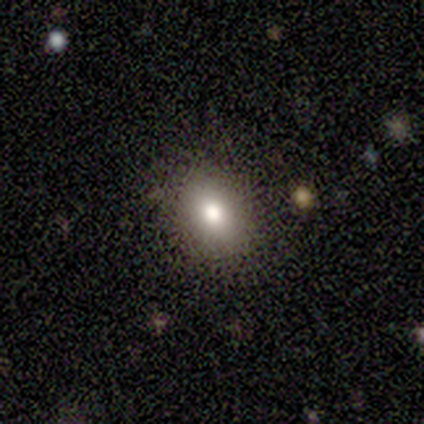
smooth 50% (tied), star or artifact 50% (tied), featured or disk 0%. Down the decision tree: how rounded — in between (100%); merging — major disturbance (100%).